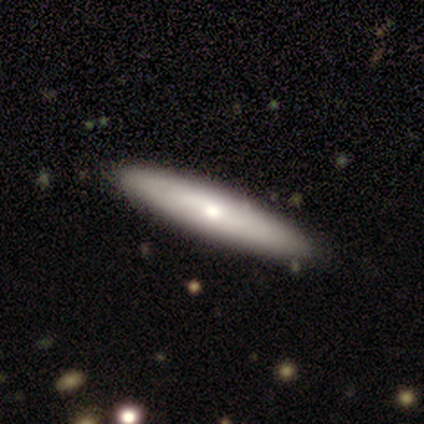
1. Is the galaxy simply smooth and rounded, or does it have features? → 100% smooth, 0% featured or disk, 0% star or artifact.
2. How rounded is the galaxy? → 100% cigar-shaped, 0% round, 0% in between.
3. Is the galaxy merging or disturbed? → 100% none, 0% minor disturbance, 0% major disturbance, 0% merger.